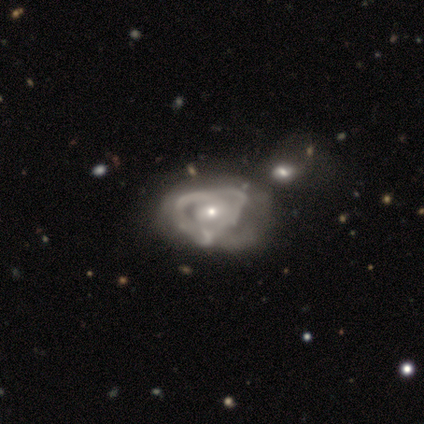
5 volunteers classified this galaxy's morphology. This appears to be a featured or disk galaxy (80%) with no bar (75%), tight (100%) spiral arms (75%) and a small central bulge (50%). Merging: major disturbance (50%, tied with merger).